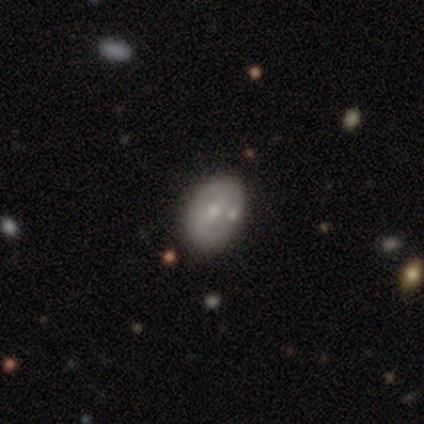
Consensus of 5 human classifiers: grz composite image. It shows a smooth galaxy with no disk features (40%, tied with featured or disk) that is in between round and cigar-shaped (100%). Merging: none (75%).